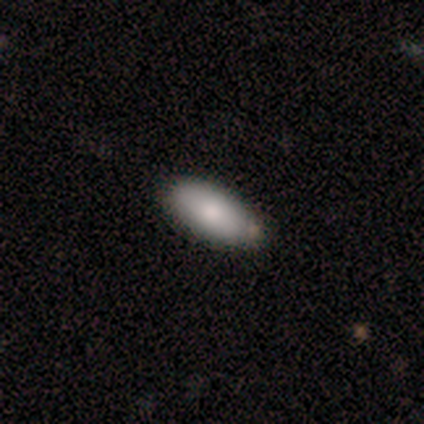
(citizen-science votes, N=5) smooth-or-featured: smooth: 60% | featured or disk: 40% | star or artifact: 0%
  how-rounded: in between: 100% | round: 0% | cigar-shaped: 0%
  merging: none: 60% | minor disturbance: 20% | merger: 20% | major disturbance: 0%